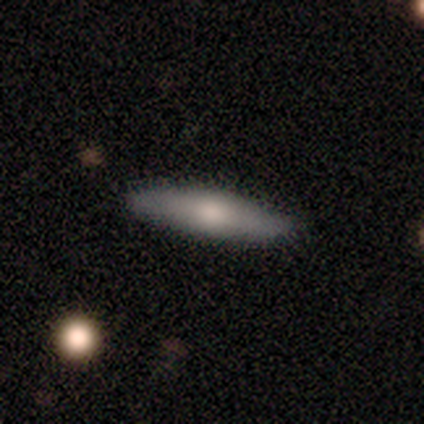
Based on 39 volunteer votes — Q: Smooth or featured?
A: smooth (64%); runner-up: featured or disk (31%)
Q: How rounded?
A: cigar-shaped (84%); runner-up: in between (16%)
Q: Merging?
A: none (86%); runner-up: minor disturbance (14%)